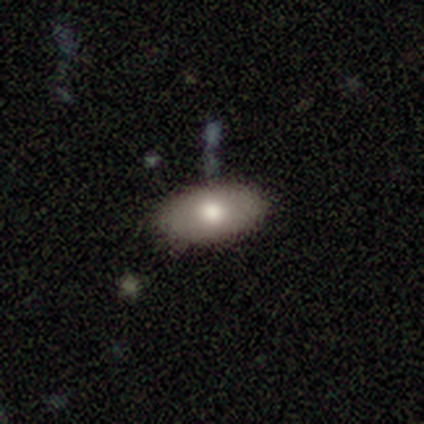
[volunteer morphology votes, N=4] Smooth or featured? 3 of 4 (75%) said smooth. How rounded? 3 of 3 (100%) said in between. Merging? 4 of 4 (100%) said none.